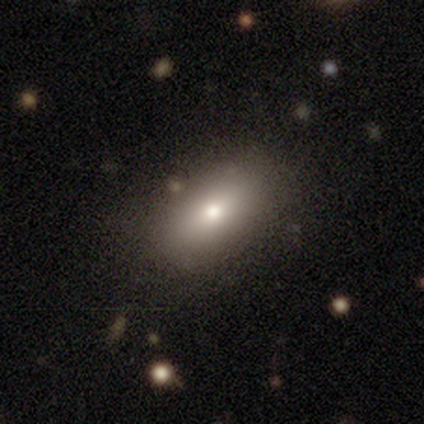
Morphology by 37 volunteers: Overall: smooth (89%). How rounded: in between (82%). Merging: none (62%).